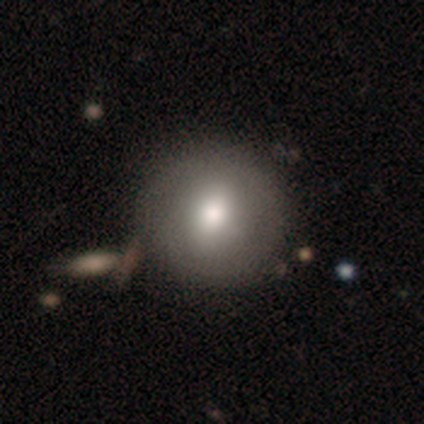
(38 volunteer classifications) smooth-or-featured: smooth: 66% | featured or disk: 29% | star or artifact: 5%
  how-rounded: round: 92% | in between: 8% | cigar-shaped: 0%
  merging: none: 61% | merger: 11% | major disturbance: 6% | minor disturbance: 3%